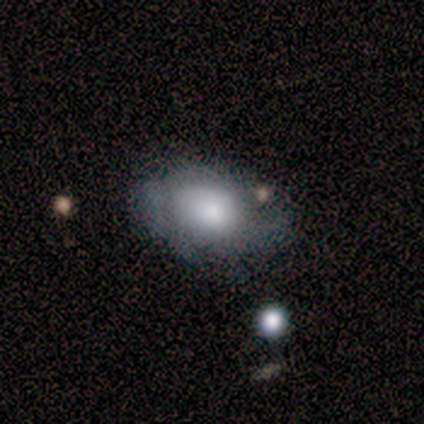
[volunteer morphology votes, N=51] A featured or disk galaxy (59%) with no bar (90%), tight (42%) spiral arms (66%) and a moderate central bulge (45%).

Vote fractions:
- Smooth or featured? featured or disk: 59% / smooth: 41% / star or artifact: 0%
- Edge-on disk? no: 97% / yes: 3%
- Bar? no: 90% / weak: 10% / strong: 0%
- Spiral arms? yes: 66% / no: 34%
- Spiral winding? tight: 42% / medium: 37% / loose: 21%
- Spiral arm count? can't tell: 58% / 2: 21% / 1: 11% / 4: 5% / more than 4: 5% / 3: 0%
- Bulge size? moderate: 45% / large: 34% / small: 14% / dominant: 3% / none: 3%
- Merging? none: 47% / minor disturbance: 33% / major disturbance: 18% / merger: 2%